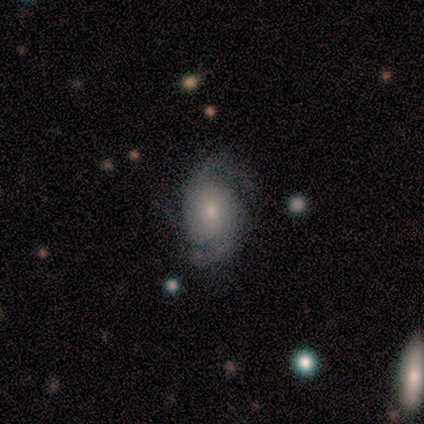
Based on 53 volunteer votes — A featured or disk galaxy (68%) with no bar (80%), 2 (82%) tight (36%, tied with medium) spiral arms (94%) and a small central bulge (57%). Merging: none (65%).